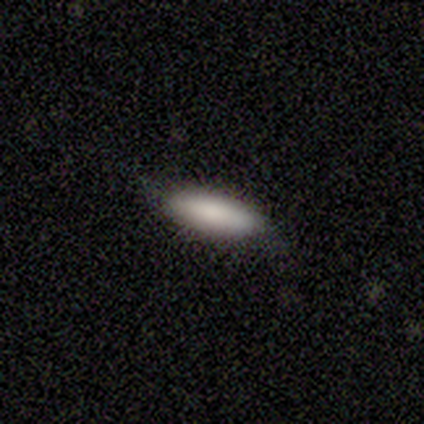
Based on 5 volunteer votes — Volunteers were most divided on "smooth or featured": smooth: 60%, featured or disk: 40%, star or artifact: 0%. More confident: how rounded — in between (67%); merging — none (60%).